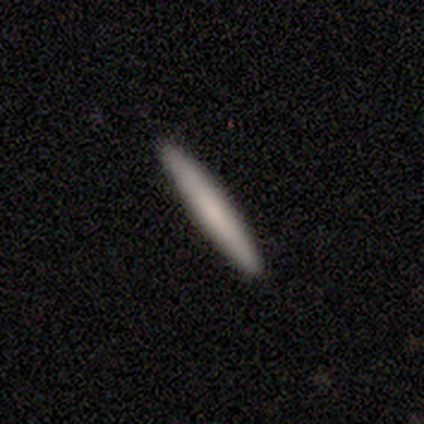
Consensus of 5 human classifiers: Q: Smooth or featured?
A: smooth (60%); runner-up: featured or disk (40%)
Q: How rounded?
A: cigar-shaped (100%)
Q: Merging?
A: none (80%); runner-up: minor disturbance (20%)